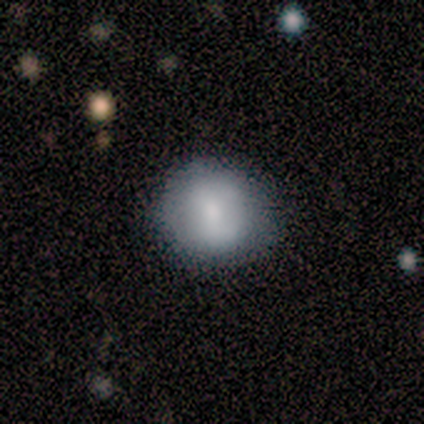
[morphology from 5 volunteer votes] smooth 100%, featured or disk 0%, star or artifact 0%. Down the decision tree: how rounded — round (80%); merging — none (100%).